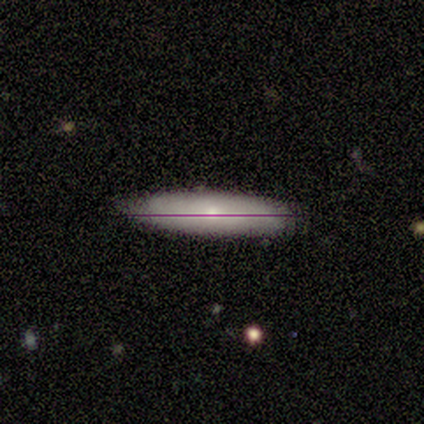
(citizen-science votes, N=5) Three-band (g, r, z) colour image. It shows a featured or disk galaxy (40%, tied with star or artifact) with a strong bar (50%, tied with weak), medium (100%) spiral arms (50%, tied with no) and a small central bulge (100%). Merging: none (100%).